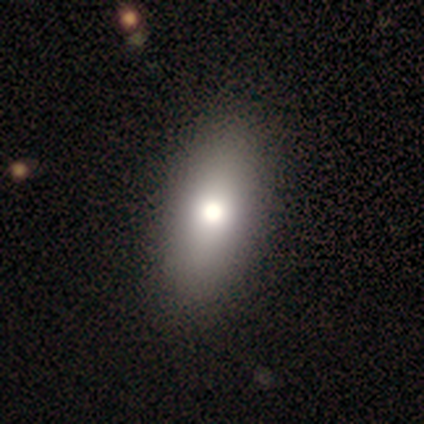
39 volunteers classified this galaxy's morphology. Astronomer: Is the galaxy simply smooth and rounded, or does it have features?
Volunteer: smooth — 87%.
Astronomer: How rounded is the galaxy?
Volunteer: in between — 88%.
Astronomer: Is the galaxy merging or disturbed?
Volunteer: none — 54%.